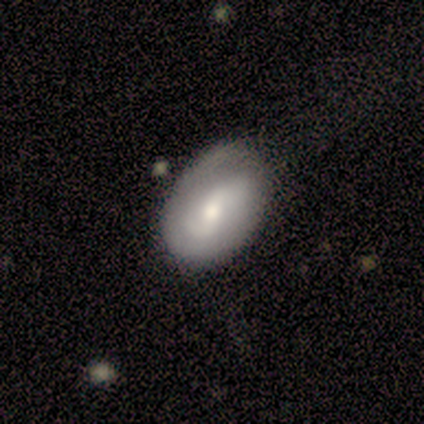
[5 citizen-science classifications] Q: Smooth or featured?
A: smooth (80%); runner-up: featured or disk (20%)
Q: How rounded?
A: in between (75%); runner-up: round (25%)
Q: Merging?
A: none (80%); runner-up: major disturbance (20%)